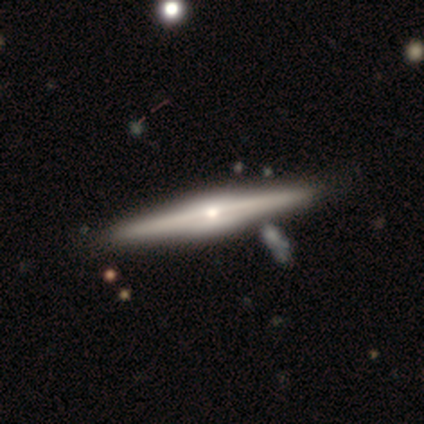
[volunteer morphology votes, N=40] Smooth or featured: featured or disk — 78% (smooth — 20%)
Edge-on disk: yes — 97% (no — 3%)
Edge-on bulge: rounded — 83% (none — 10%)
Merging: none — 72% (merger — 8%)